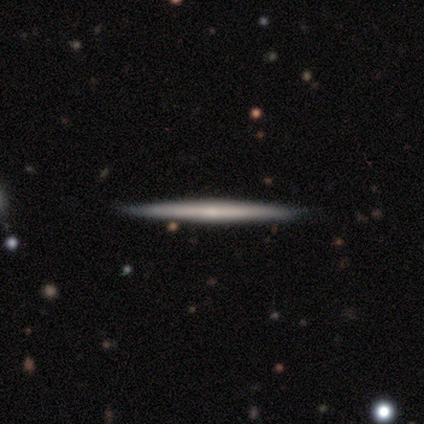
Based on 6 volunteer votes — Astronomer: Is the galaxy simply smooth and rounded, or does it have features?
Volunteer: smooth — 50%, tied with featured or disk at 50%.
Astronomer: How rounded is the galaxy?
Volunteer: cigar-shaped — 100%.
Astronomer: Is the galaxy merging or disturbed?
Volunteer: none — 100%.